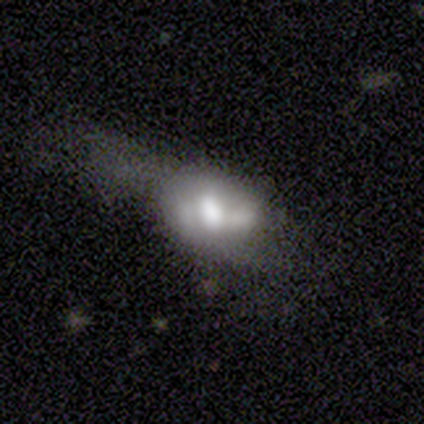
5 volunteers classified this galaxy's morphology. type=featured or disk (80%); edge-on=no (75%); bar=weak (67%); spiral arms=no (100%); bulge=dominant (33%, tied with large and small); merging=minor disturbance (40%, tied with major disturbance).